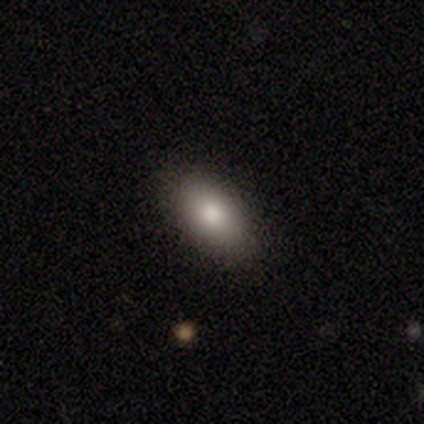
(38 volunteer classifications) Q: Smooth or featured?
A: smooth (87%); runner-up: featured or disk (8%)
Q: How rounded?
A: in between (82%); runner-up: cigar-shaped (12%)
Q: Merging?
A: none (92%); runner-up: minor disturbance (6%)